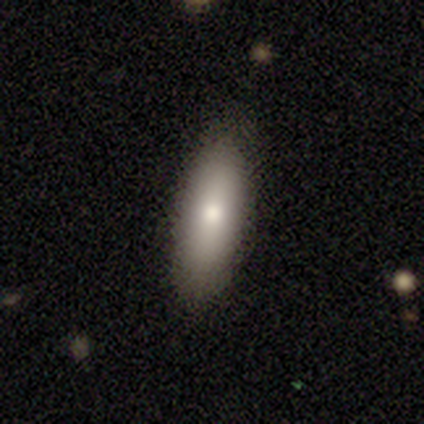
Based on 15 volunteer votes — Smooth or featured? 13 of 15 (87%) said smooth. How rounded? 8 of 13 (62%) said in between. Merging? 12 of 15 (80%) said none.